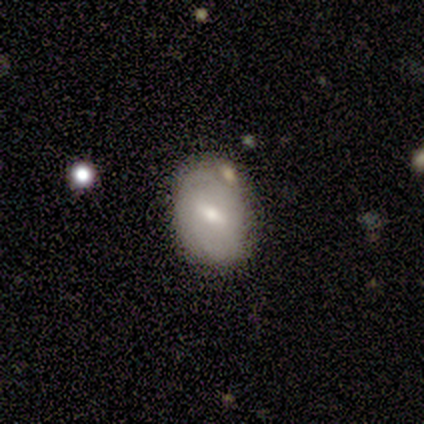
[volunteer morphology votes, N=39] smooth 54%, featured or disk 44%, star or artifact 3%. Down the decision tree: how rounded — in between (71%); merging — none (58%).